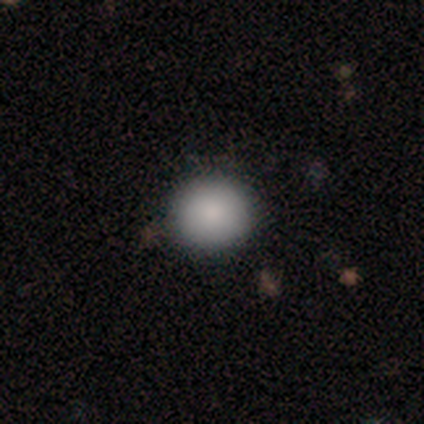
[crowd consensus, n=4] Morphology: type=smooth (100%); roundness=round (50%, tied with in between); merging=none (100%).